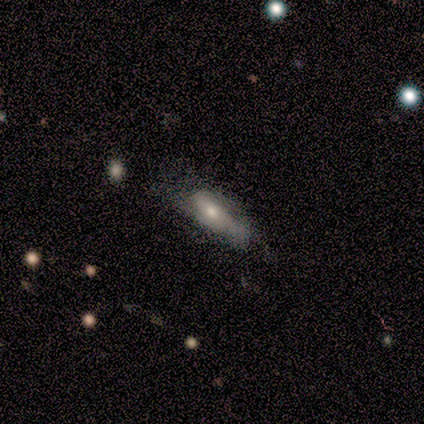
Smooth or featured: featured or disk — 75% (smooth — 25%)
Edge-on disk: no — 100%
Bar: no — 67% (weak — 33%)
Spiral arms: no — 67% (yes — 33%)
Bulge size: small — 67% (none — 33%)
Merging: none — 50% (minor disturbance — 25%)